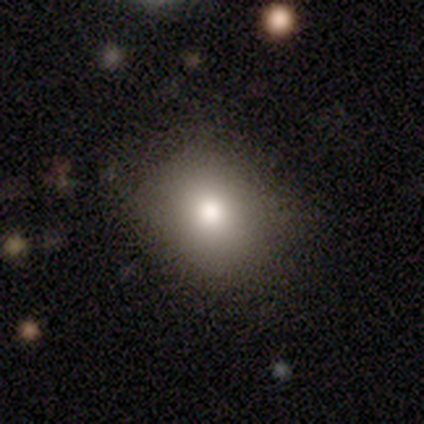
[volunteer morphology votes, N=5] Smooth or featured? 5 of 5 (100%) said smooth. How rounded? 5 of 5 (100%) said round. Merging? 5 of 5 (100%) said none.